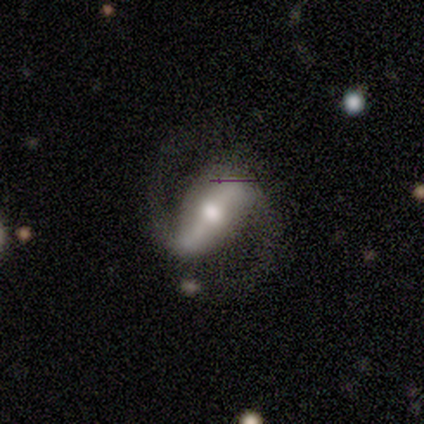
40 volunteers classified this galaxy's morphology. Volunteers were most divided on "spiral winding": medium: 64%, loose: 33%, tight: 3%. More confident: spiral arms — yes (100%); spiral arm count — 2 (97%); edge-on disk — no (94%); smooth or featured — featured or disk (88%); bar — strong (79%); bulge size — moderate (67%); merging — none (65%).